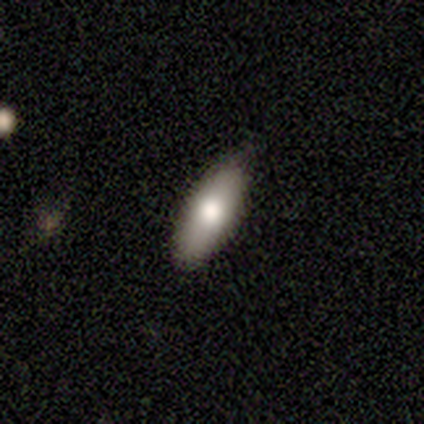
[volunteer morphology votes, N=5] Q: Smooth or featured?
A: smooth (100%)
Q: How rounded?
A: in between (60%); runner-up: cigar-shaped (40%)
Q: Merging?
A: none (100%)